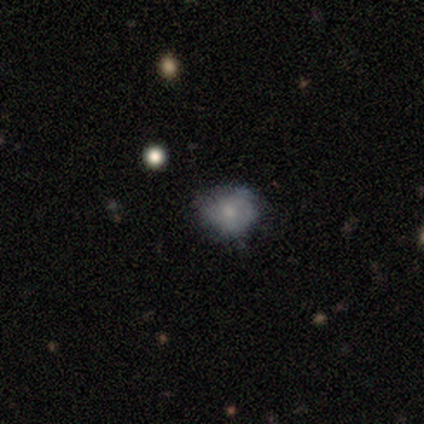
Smooth or featured? smooth (60%)
How rounded? round (67%)
Merging? none (50%, tied with minor disturbance)